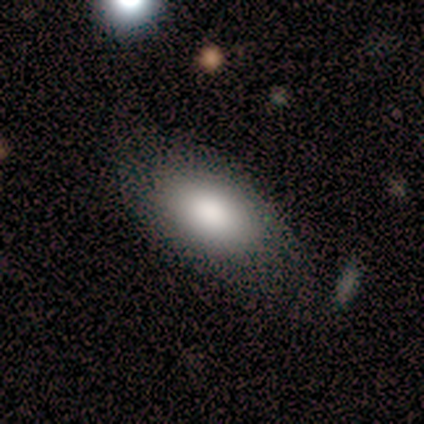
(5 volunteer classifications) This is likely a smooth galaxy (60%). How rounded: clearly in between (100%). Merging: likely none (75%).